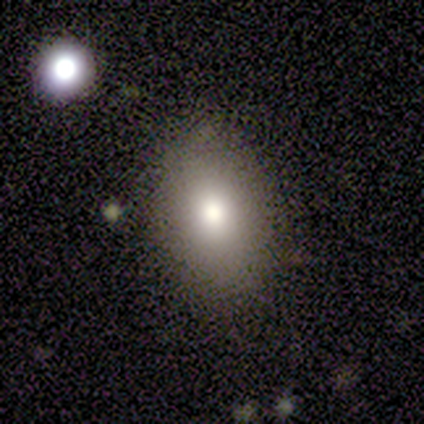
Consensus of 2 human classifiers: A smooth galaxy with no disk features (100%) that is in between round and cigar-shaped (100%).

Vote fractions:
- Smooth or featured? smooth: 100% / featured or disk: 0% / star or artifact: 0%
- How rounded? in between: 100% / round: 0% / cigar-shaped: 0%
- Merging? none: 100% / minor disturbance: 0% / major disturbance: 0% / merger: 0%